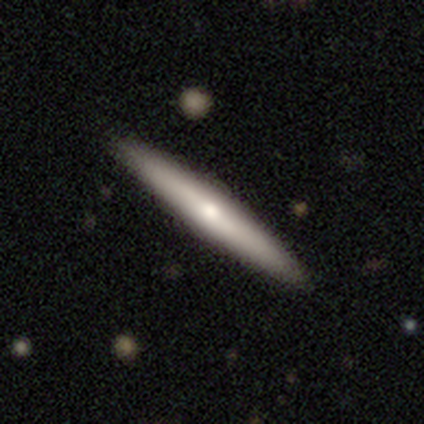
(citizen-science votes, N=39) Smooth or featured? smooth (49%, tied with featured or disk)
How rounded? cigar-shaped (95%)
Merging? none (84%)